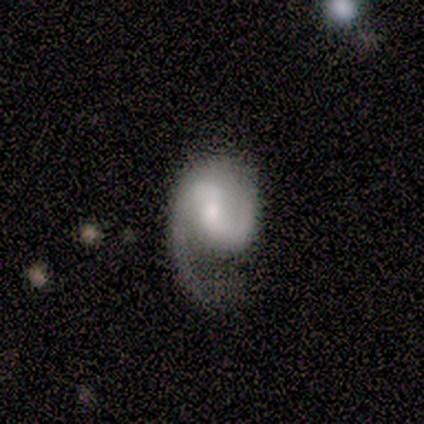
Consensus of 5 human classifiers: Morphology: type=featured or disk (60%); edge-on=no (100%); bar=weak (67%); spiral arms=yes (100%); winding=loose (67%); arm count=2 (67%); bulge=moderate (100%); merging=major disturbance (50%).